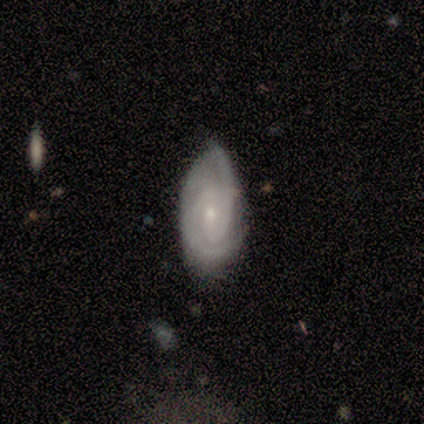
Smooth or featured? featured or disk (68%)
Edge-on disk? no (100%)
Bar? weak (46%)
Spiral arms? yes (96%)
Spiral winding? tight (52%)
Spiral arm count? 2 (72%)
Bulge size? small (85%)
Merging? none (57%)